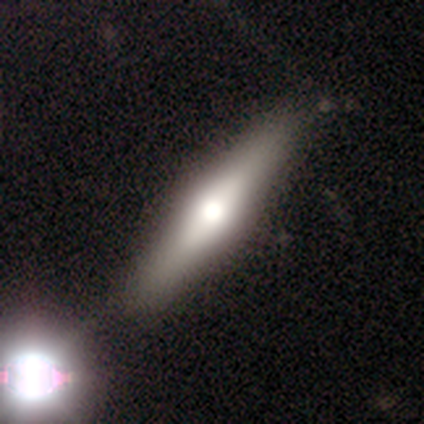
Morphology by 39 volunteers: Smooth or featured? 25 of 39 (64%) said featured or disk. Edge-on disk? 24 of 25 (96%) said yes. Edge-on bulge? 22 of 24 (92%) said rounded. Merging? 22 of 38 (58%) said none.